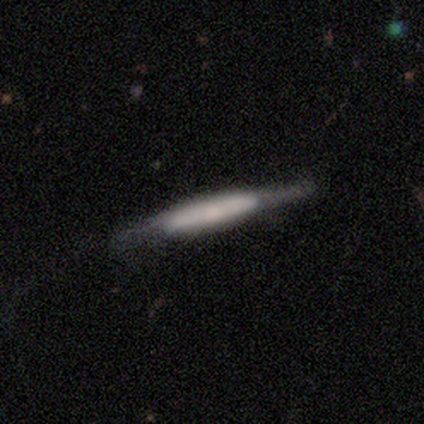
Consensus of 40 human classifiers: Smooth or featured? featured or disk (55%)
Edge-on disk? yes (82%)
Edge-on bulge? boxy (61%)
Merging? none (40%)